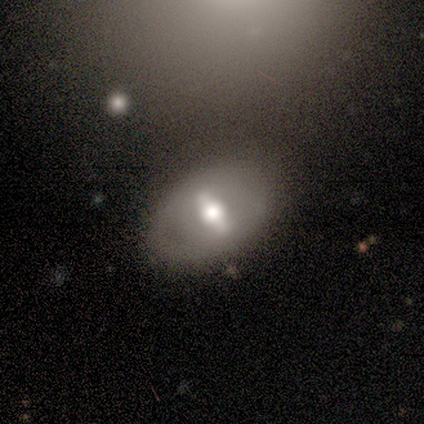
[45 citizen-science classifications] Smooth or featured? 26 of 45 (58%) said featured or disk. Edge-on disk? 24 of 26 (92%) said no. Bar? 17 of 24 (71%) said strong. Spiral arms? 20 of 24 (83%) said no. Bulge size? 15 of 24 (62%) said moderate. Merging? 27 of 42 (64%) said none.